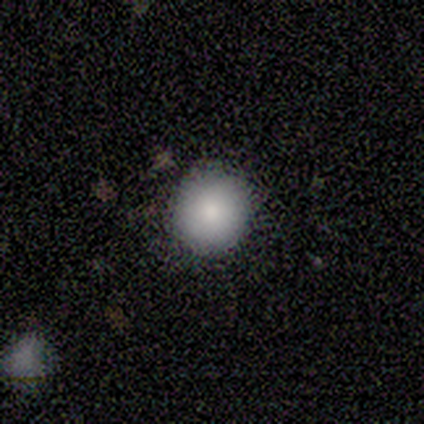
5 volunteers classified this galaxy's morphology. Volunteers were most divided on "merging": none: 60%, minor disturbance: 40%, major disturbance: 0%, merger: 0%. More confident: smooth or featured — smooth (100%); how rounded — round (100%).